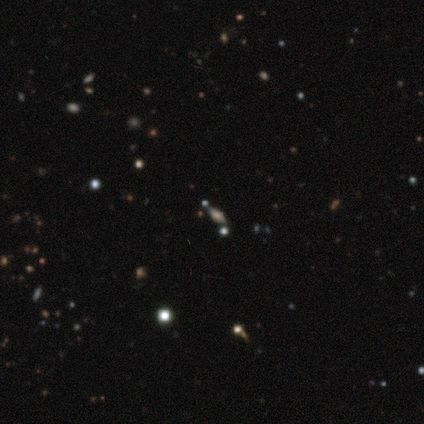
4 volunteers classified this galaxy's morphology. type=smooth (50%); roundness=in between (100%); merging=none (100%).